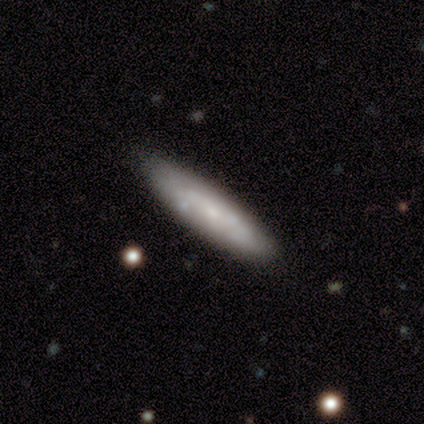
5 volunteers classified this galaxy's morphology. Q: Smooth or featured?
A: featured or disk (80%); runner-up: smooth (20%)
Q: Edge-on disk?
A: yes (50%); tied with: no (50%)
Q: Edge-on bulge?
A: none (100%)
Q: Merging?
A: none (100%)